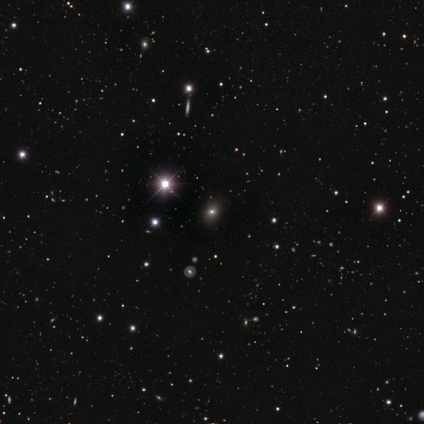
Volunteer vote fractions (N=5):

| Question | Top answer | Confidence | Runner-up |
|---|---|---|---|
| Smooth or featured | smooth | 80% | star or artifact (20%) |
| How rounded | in between | 100% | — |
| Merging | none | 100% | — |